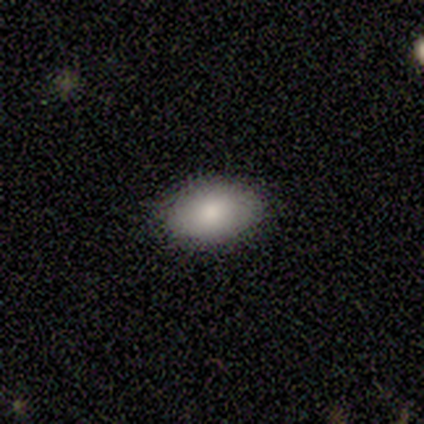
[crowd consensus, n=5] smooth-or-featured: smooth: 100% | featured or disk: 0% | star or artifact: 0%
  how-rounded: in between: 80% | round: 20% | cigar-shaped: 0%
  merging: none: 100% | minor disturbance: 0% | major disturbance: 0% | merger: 0%